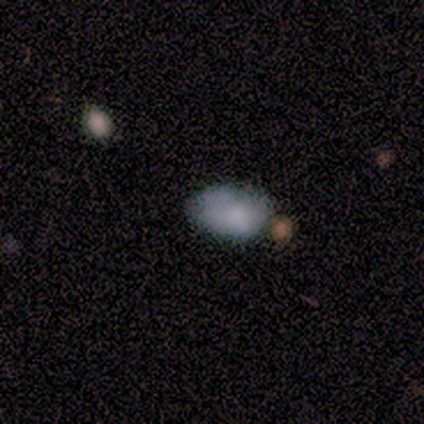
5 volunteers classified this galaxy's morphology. This appears to be a smooth galaxy with no disk features (80%) that is in between round and cigar-shaped (75%). Merging: none (75%).